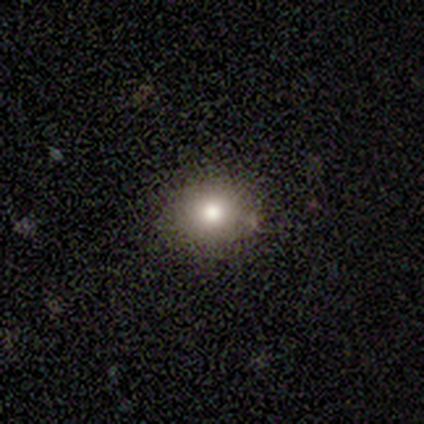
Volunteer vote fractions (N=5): Smooth or featured? smooth (60%)
How rounded? round (67%)
Merging? none (75%)